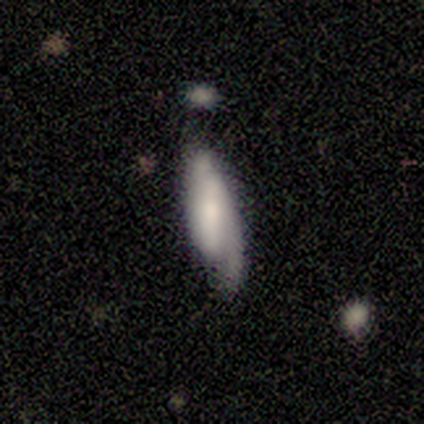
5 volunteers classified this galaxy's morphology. A featured or disk galaxy (100%) with a strong bar (67%), 1 (33%, tied with 2 and can't tell) medium (67%) spiral arms (100%) and a small central bulge (100%). Merging: none (40%).